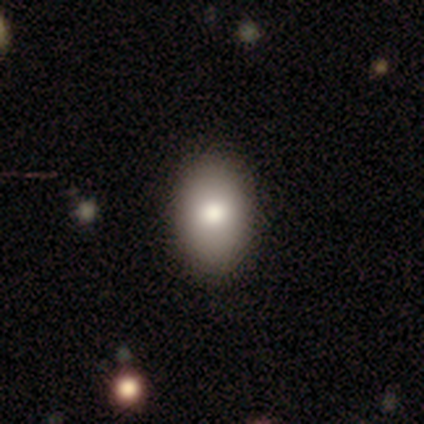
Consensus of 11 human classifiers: Smooth or featured: smooth — 82% (featured or disk — 9%)
How rounded: in between — 89% (round — 11%)
Merging: none — 100%